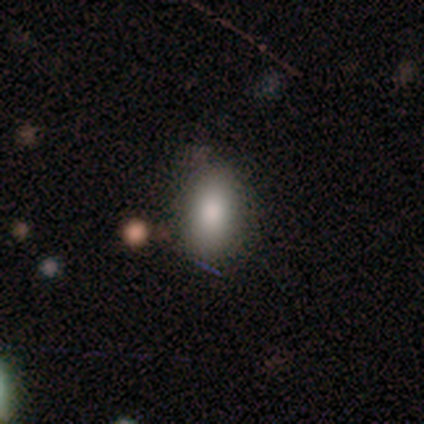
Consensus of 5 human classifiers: A smooth galaxy with no disk features (100%) that is in between round and cigar-shaped (80%). Merging: none (100%).